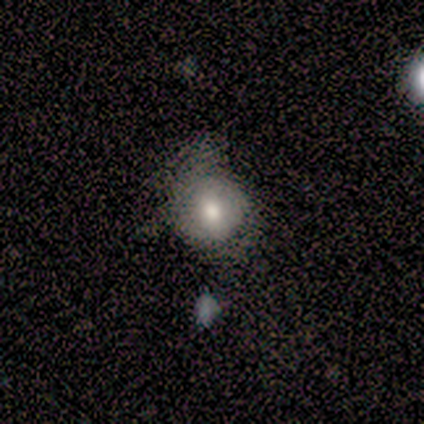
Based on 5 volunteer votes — Volunteers were most divided on "merging" (2-way tie): minor disturbance: 40%, major disturbance: 40%, merger: 20%, none: 0%. More confident: edge-on disk — no (100%); bulge size — moderate (100%); bar — no (67%); spiral arms — no (67%); smooth or featured — featured or disk (60%).